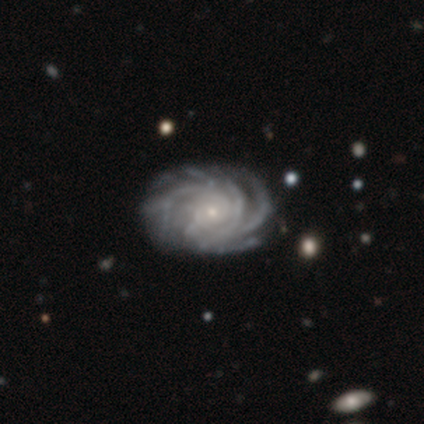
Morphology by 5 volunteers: featured or disk 100%, smooth 0%, star or artifact 0%. Down the decision tree: edge-on disk — no (100%); bar — no (100%); spiral arms — yes (100%); spiral arm count — 4 (60%); spiral winding — tight (80%); bulge size — small (100%); merging — none (100%).